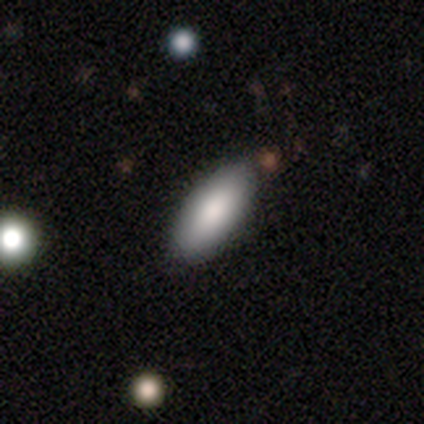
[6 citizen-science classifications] This appears to be a smooth galaxy with no disk features (100%) that is in between round and cigar-shaped (100%). Merging: none (100%).